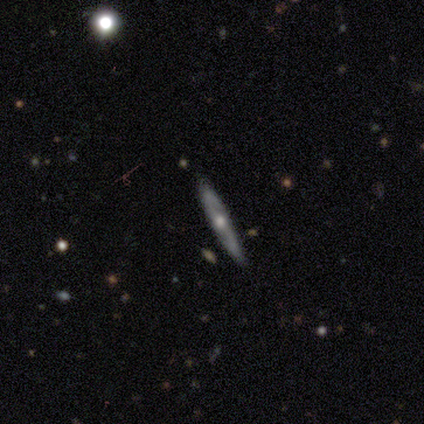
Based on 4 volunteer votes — Overall: featured or disk (100%). Edge-on disk: yes (75%). Edge-on bulge: rounded (100%). Merging: none (100%).